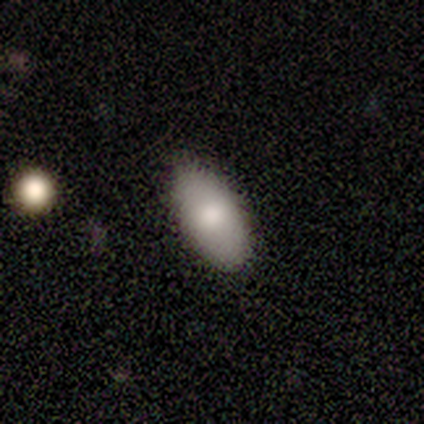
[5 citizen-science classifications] This is clearly a smooth galaxy (80%). How rounded: clearly in between (100%). Merging: likely none (75%).